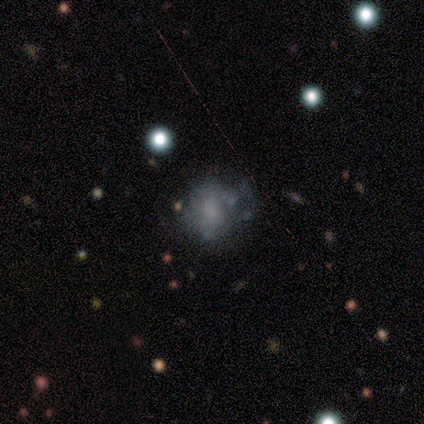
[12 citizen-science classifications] Overall: smooth (42%, tied with featured or disk). How rounded: in between (80%). Merging: none (40%, tied with major disturbance).